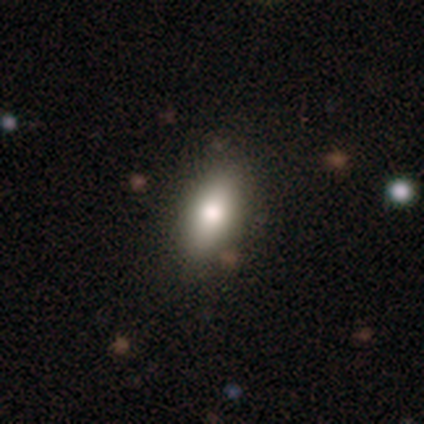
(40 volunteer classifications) Smooth or featured: smooth — 85% (featured or disk — 15%)
How rounded: in between — 97% (cigar-shaped — 3%)
Merging: none — 80% (minor disturbance — 20%)